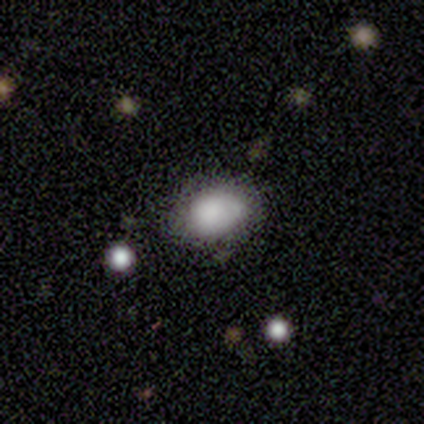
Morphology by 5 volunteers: Smooth or featured: smooth — 80% (featured or disk — 20%)
How rounded: in between — 100%
Merging: none — 100%